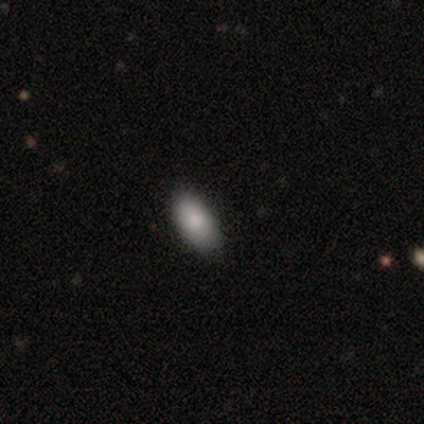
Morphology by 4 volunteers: Q: Smooth or featured?
A: star or artifact (75%); runner-up: smooth (25%)